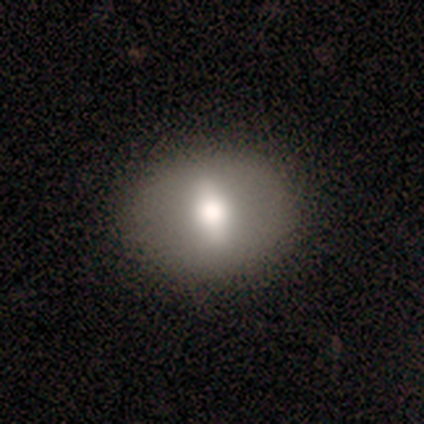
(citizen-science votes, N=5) Smooth or featured? smooth (60%)
How rounded? round (67%)
Merging? none (100%)